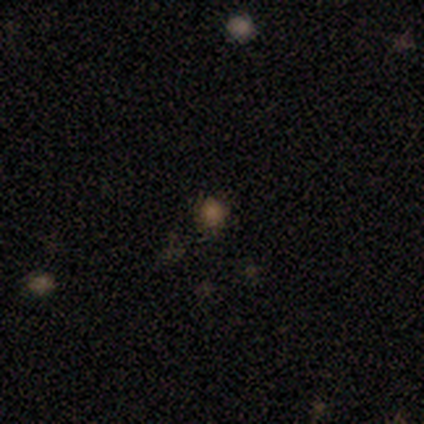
This appears to be a smooth galaxy with no disk features (60%) that is round (100%). Merging: none (75%).